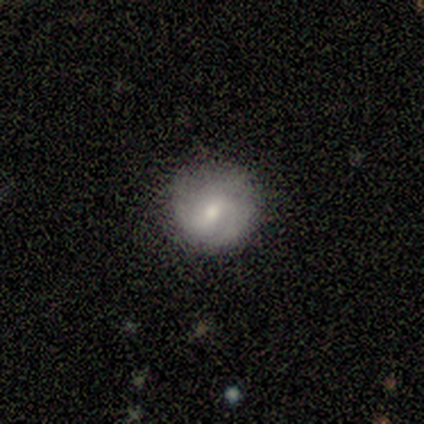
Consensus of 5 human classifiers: This is clearly a featured or disk galaxy (80%). It is clearly not viewed edge-on (100%). Bar: possibly weak (50%, tied with no). Spiral arm pattern: clearly yes (100%). Spiral arm count: possibly can't tell (50%). Spiral winding: possibly tight (50%, tied with medium). Central bulge: possibly moderate (50%, tied with small). Merging: clearly none (100%).